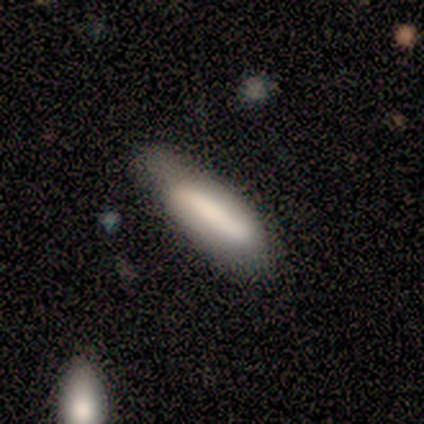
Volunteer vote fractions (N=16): Q: Smooth or featured?
A: smooth (69%); runner-up: featured or disk (31%)
Q: How rounded?
A: cigar-shaped (55%); runner-up: in between (45%)
Q: Merging?
A: none (50%); tied with: minor disturbance (50%)